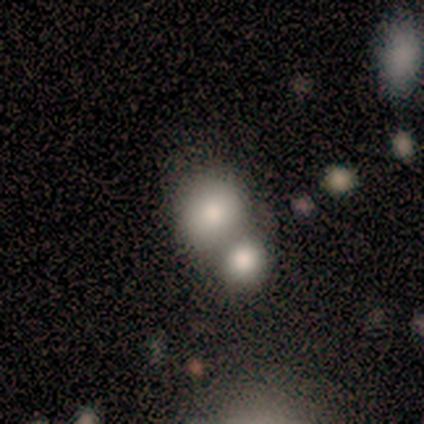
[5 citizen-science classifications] A smooth galaxy with no disk features (100%) that is round (100%).

Vote fractions:
- Smooth or featured? smooth: 100% / featured or disk: 0% / star or artifact: 0%
- How rounded? round: 100% / in between: 0% / cigar-shaped: 0%
- Merging? merger: 100% / none: 0% / minor disturbance: 0% / major disturbance: 0%